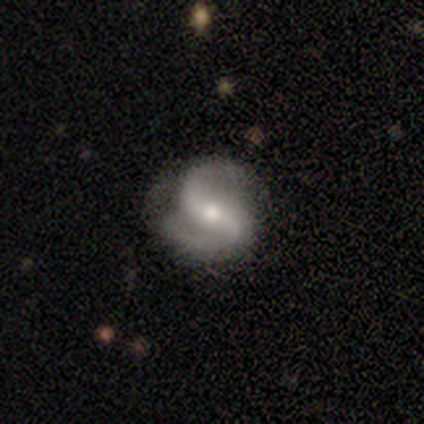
Smooth or featured: featured or disk — 100%
Edge-on disk: no — 100%
Bar: weak — 60% (strong — 20%)
Spiral arms: yes — 100%
Spiral winding: loose — 60% (tight — 20%)
Spiral arm count: 2 — 80% (can't tell — 20%)
Bulge size: small — 60% (moderate — 40%)
Merging: none — 100%